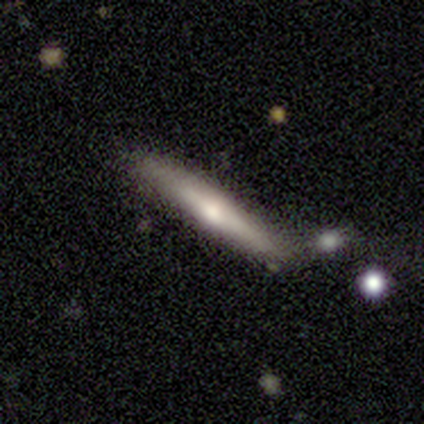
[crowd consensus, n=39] A featured or disk galaxy (54%) viewed edge-on (95%) with a rounded central bulge (85%).

Vote fractions:
- Smooth or featured? featured or disk: 54% / smooth: 44% / star or artifact: 3%
- Edge-on disk? yes: 95% / no: 5%
- Edge-on bulge? rounded: 85% / none: 15% / boxy: 0%
- Merging? none: 71% / merger: 13% / minor disturbance: 11% / major disturbance: 5%